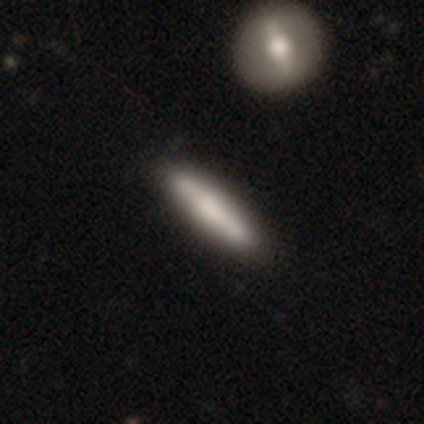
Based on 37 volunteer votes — smooth 68%, featured or disk 30%, star or artifact 3%. Down the decision tree: how rounded — cigar-shaped (96%); merging — none (81%).